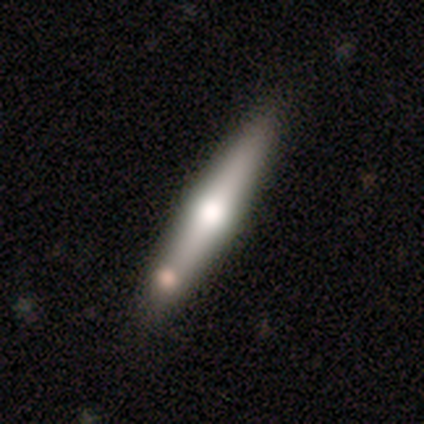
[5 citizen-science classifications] Smooth or featured?
  - smooth: 60% *
  - featured or disk: 20%
  - star or artifact: 20%
How rounded?
  - cigar-shaped: 100% *
  - round: 0%
  - in between: 0%
Merging?
  - none: 75% *
  - merger: 25%
  - minor disturbance: 0%
  - major disturbance: 0%